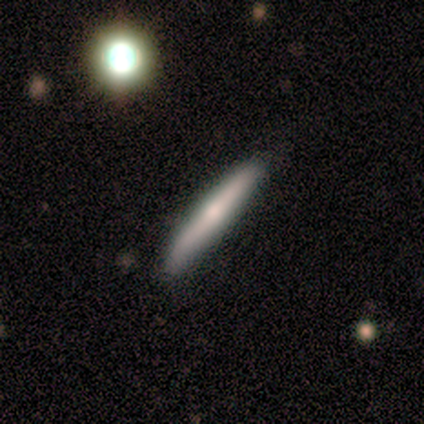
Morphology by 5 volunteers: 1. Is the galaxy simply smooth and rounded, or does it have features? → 80% featured or disk, 20% smooth, 0% star or artifact.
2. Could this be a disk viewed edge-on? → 100% yes, 0% no.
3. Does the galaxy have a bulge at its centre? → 75% rounded, 25% none, 0% boxy.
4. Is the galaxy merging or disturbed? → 80% none, 20% minor disturbance, 0% major disturbance, 0% merger.